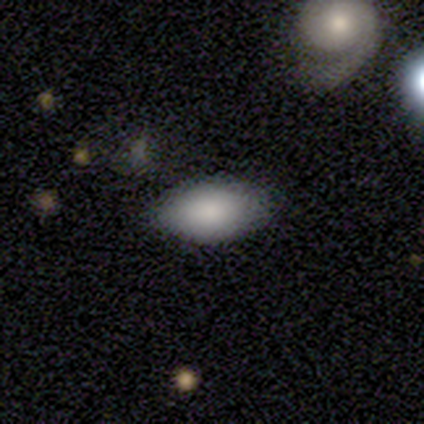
Morphology: type=smooth (100%); roundness=in between (100%); merging=none (100%).